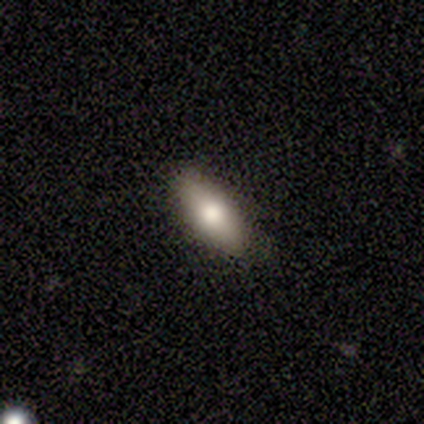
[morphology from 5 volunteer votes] This is likely a smooth galaxy (60%). How rounded: clearly in between (100%). Merging: clearly none (100%).